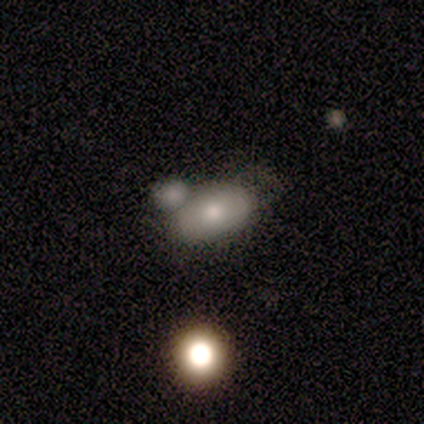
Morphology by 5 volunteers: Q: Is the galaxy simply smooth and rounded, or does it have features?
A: smooth — 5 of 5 (100%).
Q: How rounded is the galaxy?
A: in between — 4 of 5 (80%).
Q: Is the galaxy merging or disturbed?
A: merger — 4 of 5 (80%).